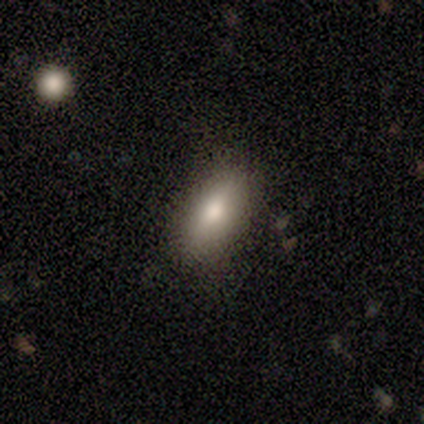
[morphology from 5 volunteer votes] Smooth or featured? 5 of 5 (100%) said smooth. How rounded? 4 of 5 (80%) said in between. Merging? 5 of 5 (100%) said none.